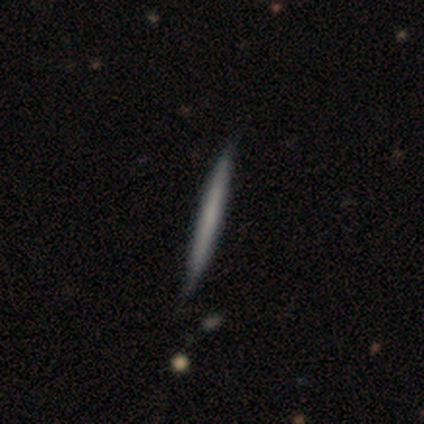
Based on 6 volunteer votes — smooth_or_featured: smooth (p=0.83) [alt: featured or disk p=0.17]
how_rounded: cigar-shaped (p=1.00)
merging: none (p=0.67) [alt: minor disturbance p=0.33]